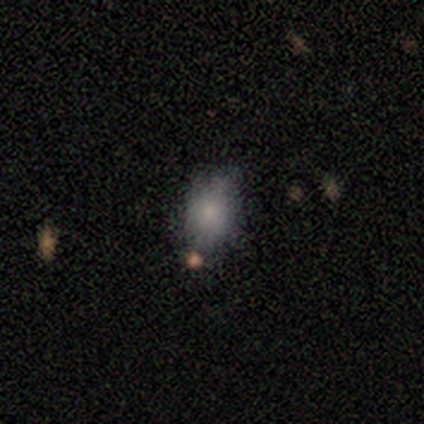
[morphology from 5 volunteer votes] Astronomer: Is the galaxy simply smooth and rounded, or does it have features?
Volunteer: smooth — 60%.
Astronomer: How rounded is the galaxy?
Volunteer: in between — 100%.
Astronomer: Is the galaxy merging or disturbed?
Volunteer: none — 100%.